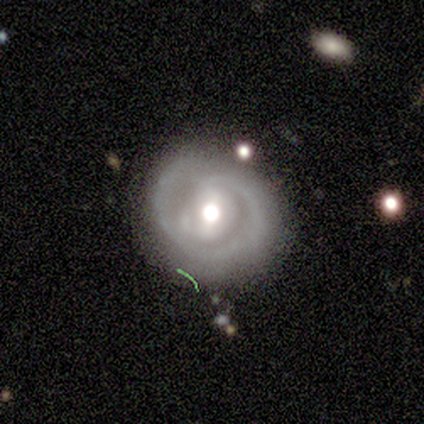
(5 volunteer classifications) Overall: featured or disk (100%). Edge-on disk: no (80%). Bar: weak (50%; strong 25%). Spiral arms: yes (75%). Spiral arm count: 2 (67%; can't tell 33%). Spiral winding: tight (67%; medium 33%). Bulge size: moderate (100%). Merging: none (40%, tied with minor disturbance).